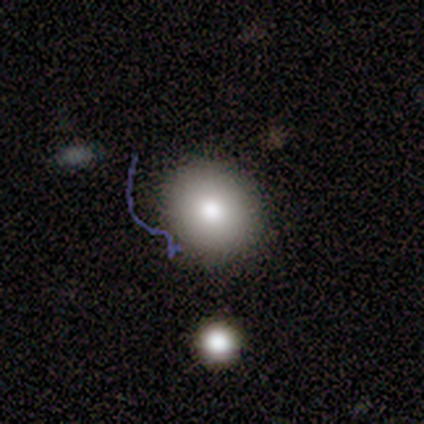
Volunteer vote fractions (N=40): Overall: smooth (82%). How rounded: round (85%). Merging: none (78%).